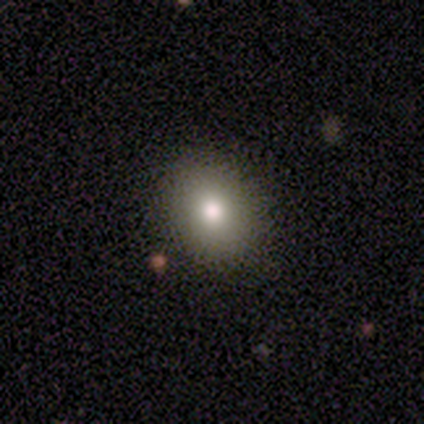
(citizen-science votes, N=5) A smooth galaxy with no disk features (60%) that is in between round and cigar-shaped (67%).

Vote fractions:
- Smooth or featured? smooth: 60% / star or artifact: 40% / featured or disk: 0%
- How rounded? in between: 67% / round: 33% / cigar-shaped: 0%
- Merging? none: 100% / minor disturbance: 0% / major disturbance: 0% / merger: 0%